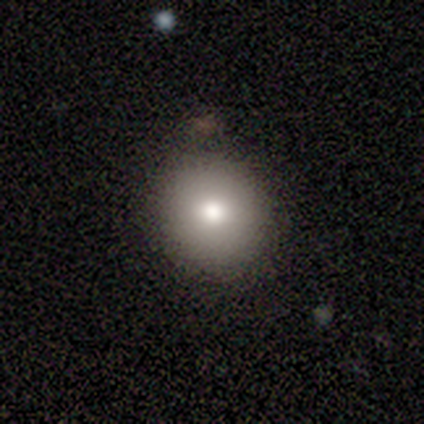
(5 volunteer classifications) A smooth galaxy with no disk features (80%) that is round (100%). Merging: none (80%).